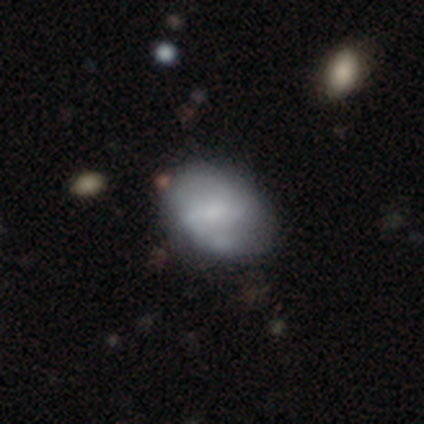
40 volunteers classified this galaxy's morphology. smooth-or-featured: featured or disk: 52% | smooth: 45% | star or artifact: 2%
  disk-edge-on: no: 100% | yes: 0%
    bar: no: 48% | weak: 29% | strong: 24%
    has-spiral-arms: yes: 67% | no: 33%
      spiral-winding: medium: 43% | tight: 36% | loose: 21%
      spiral-arm-count: 2: 64% | 1: 14% | 3: 14% | can't tell: 7% | 4: 0% | more than 4: 0%
    bulge-size: moderate: 33% (tied) | small: 33% (tied) | none: 29% | large: 5% | dominant: 0%
  merging: none: 62% | minor disturbance: 21% | merger: 8% | major disturbance: 0%